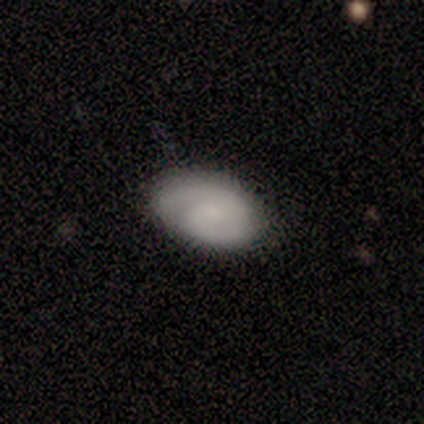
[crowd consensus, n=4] This appears to be a featured or disk galaxy (50%) with a weak bar (50%, tied with no), 1 (50%, tied with 2) tight (50%, tied with loose) spiral arms (100%) and a small central bulge (100%). Merging: none (100%).